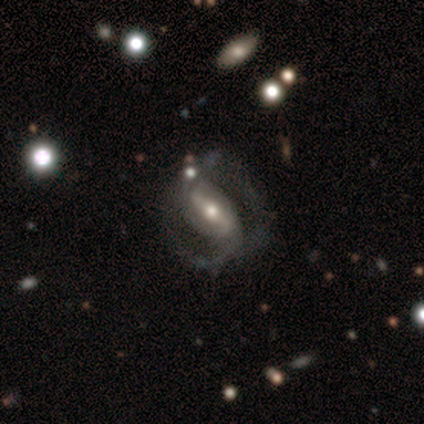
Morphology: type=featured or disk (88%); edge-on=no (90%); bar=strong (58%); spiral arms=yes (79%); winding=medium (53%); arm count=2 (93%); bulge=moderate (53%); merging=none (53%).